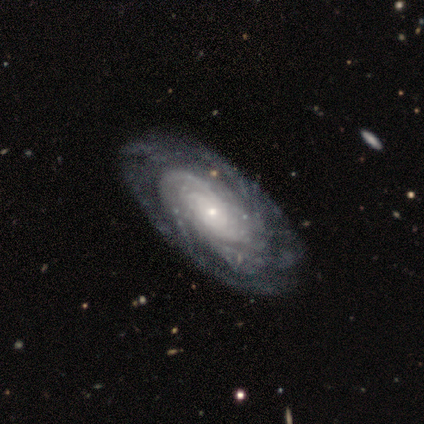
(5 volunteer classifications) Smooth or featured? 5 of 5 (100%) said featured or disk. Edge-on disk? 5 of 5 (100%) said no. Bar? 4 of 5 (80%) said no. Spiral arms? 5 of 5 (100%) said yes. Spiral winding? 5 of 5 (100%) said tight. Spiral arm count? 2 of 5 (40%, tied with can't tell) said more than 4. Bulge size? 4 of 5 (80%) said moderate. Merging? 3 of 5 (60%) said none.